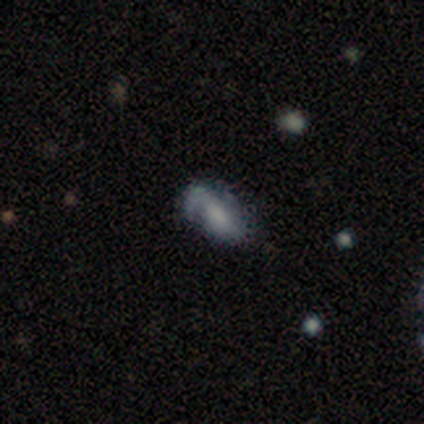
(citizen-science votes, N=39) This appears to be a featured or disk galaxy (54%) with a weak bar (45%), 1 (44%) medium (50%) spiral arms (80%) and no central bulge (35%). Merging: none (54%).